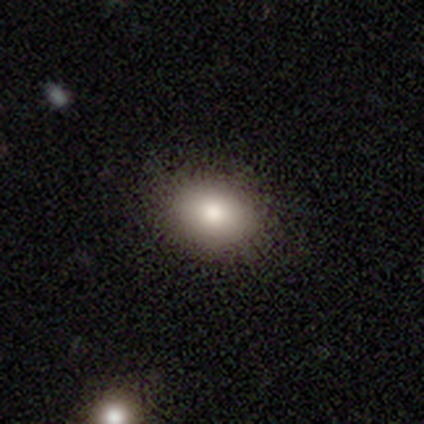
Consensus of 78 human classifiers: Morphology: type=smooth (79%); roundness=in between (65%); merging=none (45%).